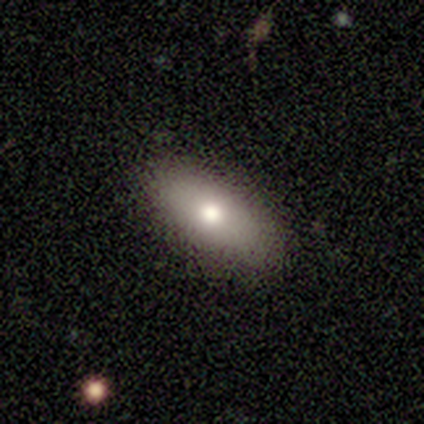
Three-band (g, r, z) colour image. It shows a smooth galaxy with no disk features (75%) that is in between round and cigar-shaped (100%). Merging: none (100%).